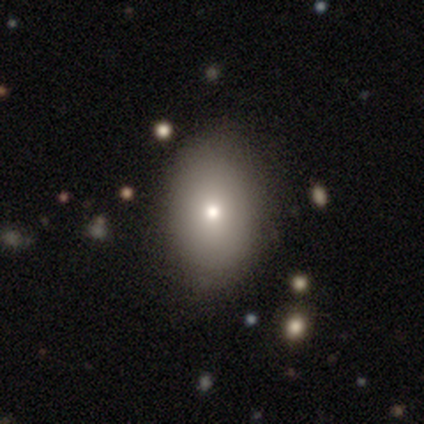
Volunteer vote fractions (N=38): Q: Smooth or featured?
A: smooth (82%); runner-up: featured or disk (13%)
Q: How rounded?
A: in between (71%); runner-up: round (29%)
Q: Merging?
A: none (53%); runner-up: minor disturbance (6%)